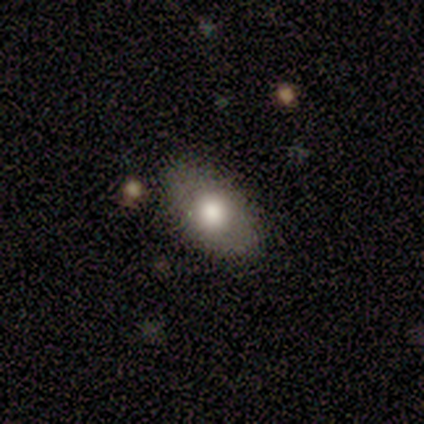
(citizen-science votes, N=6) Smooth or featured: smooth — 83% (star or artifact — 17%)
How rounded: in between — 60% (round — 40%)
Merging: none — 60% (minor disturbance — 40%)